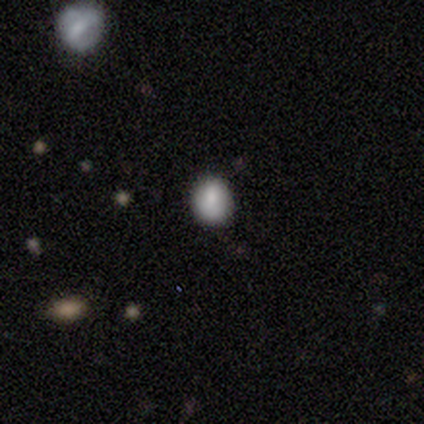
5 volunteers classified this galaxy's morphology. Smooth or featured? 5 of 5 (100%) said smooth. How rounded? 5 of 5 (100%) said round. Merging? 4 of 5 (80%) said none.